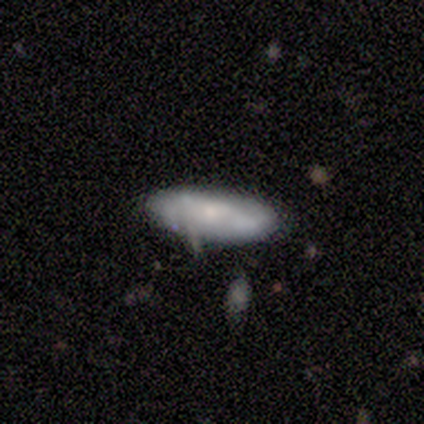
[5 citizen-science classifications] Q: Smooth or featured?
A: featured or disk (80%); runner-up: smooth (20%)
Q: Edge-on disk?
A: yes (50%); tied with: no (50%)
Q: Edge-on bulge?
A: rounded (100%)
Q: Merging?
A: none (60%); runner-up: minor disturbance (40%)